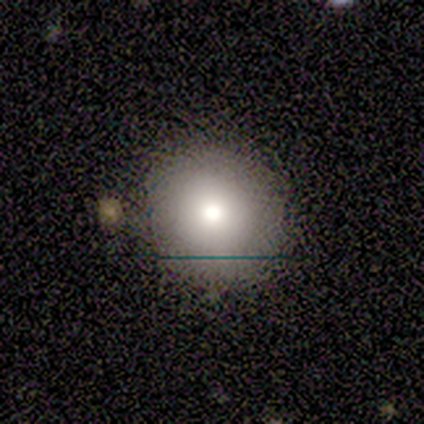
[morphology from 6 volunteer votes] Smooth or featured? 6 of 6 (100%) said smooth. How rounded? 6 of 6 (100%) said round. Merging? 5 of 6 (83%) said none.